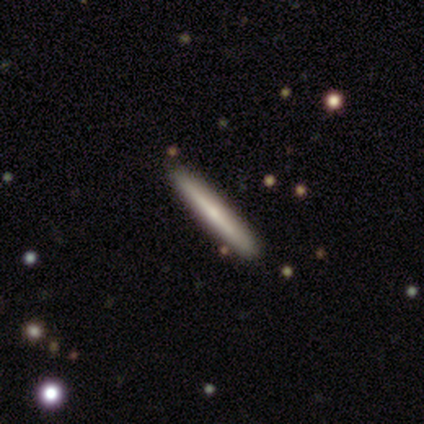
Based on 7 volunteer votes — smooth-or-featured: featured or disk: 71% | smooth: 29% | star or artifact: 0%
  disk-edge-on: yes: 80% | no: 20%
    edge-on-bulge: rounded: 100% | boxy: 0% | none: 0%
  merging: none: 71% | minor disturbance: 29% | major disturbance: 0% | merger: 0%